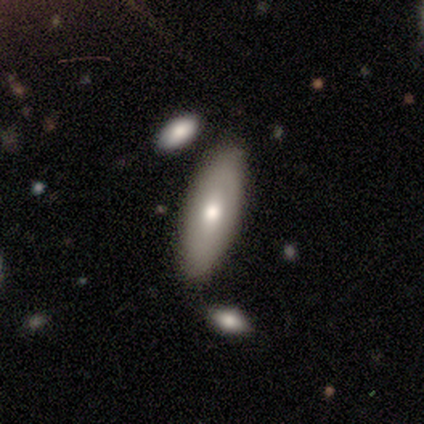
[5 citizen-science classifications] Q: Smooth or featured?
A: smooth (80%); runner-up: featured or disk (20%)
Q: How rounded?
A: in between (100%)
Q: Merging?
A: none (100%)